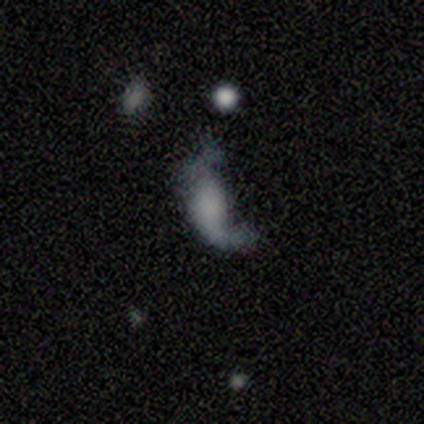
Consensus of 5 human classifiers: Smooth or featured? smooth (40%, tied with featured or disk)
How rounded? in between (50%, tied with cigar-shaped)
Merging? minor disturbance (50%, tied with major disturbance)